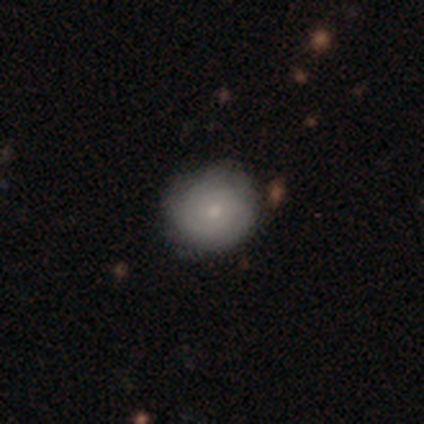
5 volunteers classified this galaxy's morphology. Smooth or featured? 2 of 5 (40%, tied with featured or disk) said smooth. How rounded? 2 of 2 (100%) said round. Merging? 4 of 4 (100%) said none.